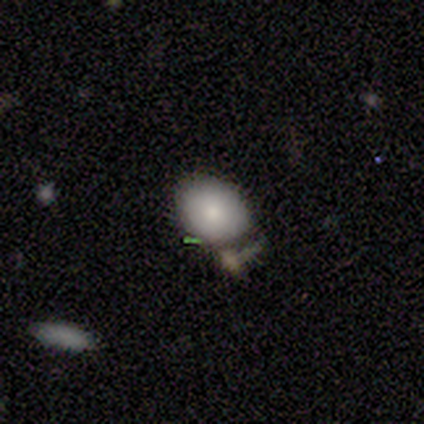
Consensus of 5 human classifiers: Smooth or featured?
  - smooth: 80% *
  - star or artifact: 20%
  - featured or disk: 0%
How rounded?
  - in between: 100% *
  - round: 0%
  - cigar-shaped: 0%
Merging?
  - none: 75% *
  - merger: 25%
  - minor disturbance: 0%
  - major disturbance: 0%